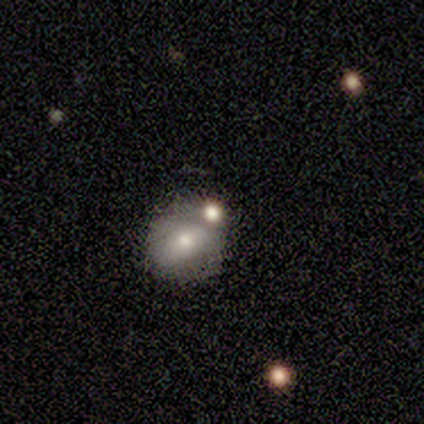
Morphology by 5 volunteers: A smooth galaxy with no disk features (80%) that is round (100%). Merging: none (80%).